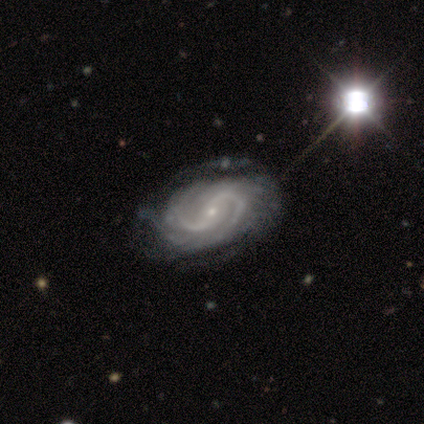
This is clearly a featured or disk galaxy (95%). It is clearly not viewed edge-on (100%). Bar: marginally no (45%). Spiral arm pattern: clearly yes (100%). Spiral arm count: likely 2 (71%). Spiral winding: likely medium (61%). Central bulge: clearly small (82%). Merging: possibly none (53%).